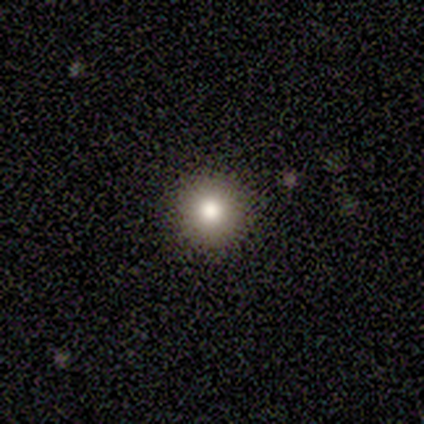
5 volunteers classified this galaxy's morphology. Overall: smooth (60%; featured or disk 20%). How rounded: round (100%). Merging: none (100%).